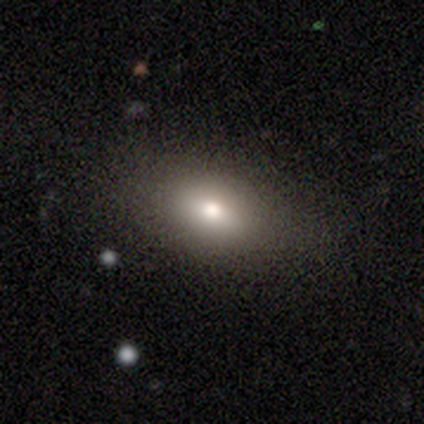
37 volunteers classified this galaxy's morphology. This is clearly a smooth galaxy (84%). How rounded: clearly in between (87%). Merging: clearly none (86%).